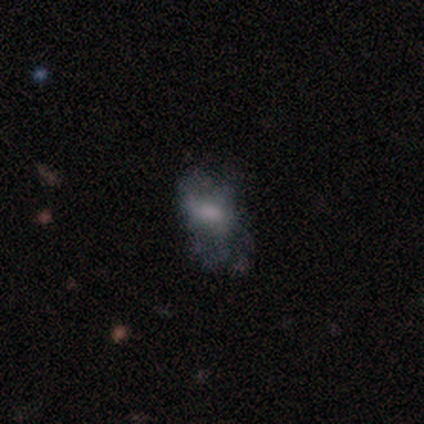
smooth-or-featured: featured or disk: 60% | smooth: 40% | star or artifact: 0%
  disk-edge-on: no: 100% | yes: 0%
    bar: no: 67% | weak: 33% | strong: 0%
    has-spiral-arms: yes: 67% | no: 33%
      spiral-winding: medium: 100% | tight: 0% | loose: 0%
      spiral-arm-count: 3: 50% (tied) | can't tell: 50% (tied) | 1: 0% | 2: 0% | 4: 0% | more than 4: 0%
    bulge-size: small: 67% | none: 33% | dominant: 0% | large: 0% | moderate: 0%
  merging: none: 60% | minor disturbance: 20% | major disturbance: 20% | merger: 0%